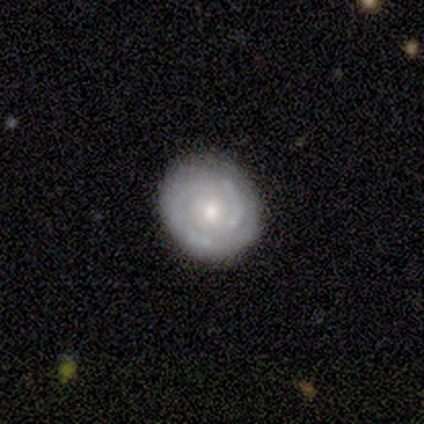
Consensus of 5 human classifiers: This appears to be a featured or disk galaxy (60%) with no bar (67%), no spiral arms (67%) and a moderate central bulge (100%). Merging: none (100%).